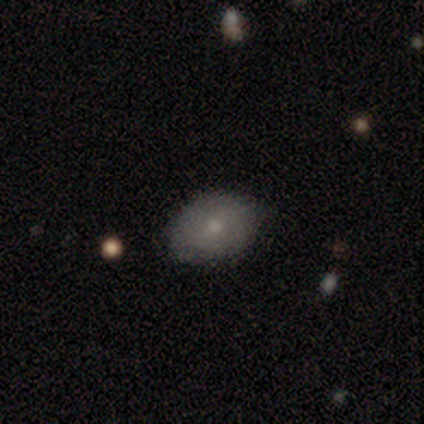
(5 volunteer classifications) Overall: smooth (100%). How rounded: round (60%; in between 40%). Merging: none (80%).